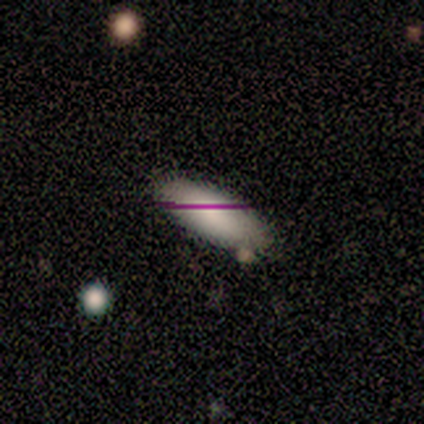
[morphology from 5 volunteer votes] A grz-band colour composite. It shows a smooth galaxy with no disk features (100%) that is in between round and cigar-shaped (80%). Merging: none (80%).